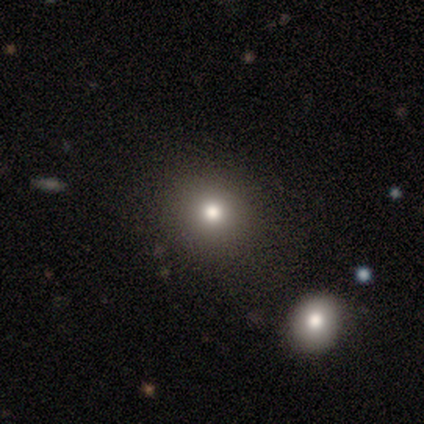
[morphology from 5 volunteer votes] smooth_or_featured: smooth (p=1.00)
how_rounded: round (p=1.00)
merging: none (p=0.80) [alt: major disturbance p=0.20]